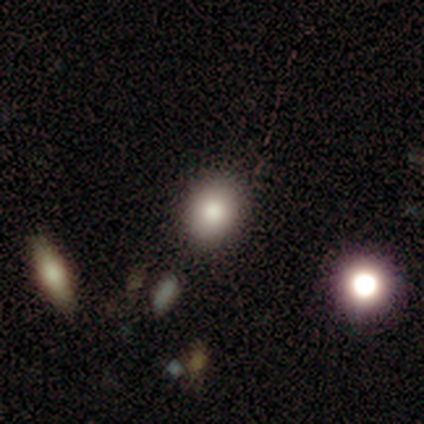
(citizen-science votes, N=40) Morphology: type=smooth (72%); roundness=round (59%); merging=none (66%).